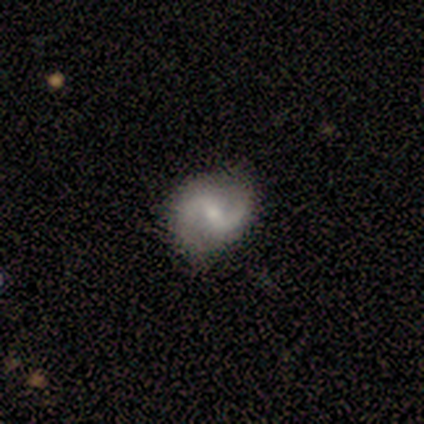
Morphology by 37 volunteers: Smooth or featured? 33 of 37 (89%) said featured or disk. Edge-on disk? 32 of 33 (97%) said no. Bar? 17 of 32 (53%) said weak. Spiral arms? 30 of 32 (94%) said yes. Spiral winding? 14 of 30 (47%) said medium. Spiral arm count? 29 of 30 (97%) said 2. Bulge size? 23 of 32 (72%) said small. Merging? 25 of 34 (74%) said none.